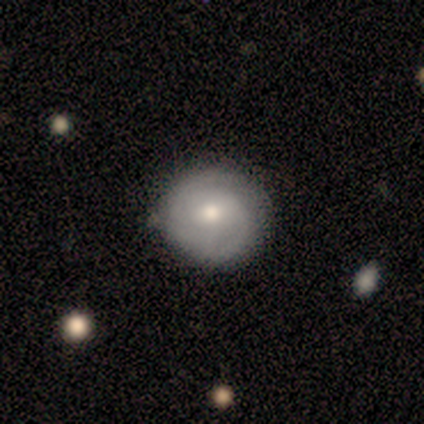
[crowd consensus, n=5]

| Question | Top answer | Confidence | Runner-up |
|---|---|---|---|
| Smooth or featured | featured or disk | 60% | smooth (40%) |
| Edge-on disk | no | 100% | — |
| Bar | no | 67% | weak (33%) |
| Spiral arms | yes | 100% | — |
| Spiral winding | medium | 67% | tight (33%) |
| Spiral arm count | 2 | 67% | can't tell (33%) |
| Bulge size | moderate | 67% | small (33%) |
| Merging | none | 60% | minor disturbance (20%) |